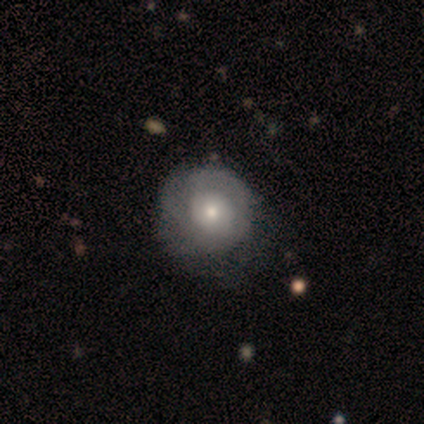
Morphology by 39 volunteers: smooth-or-featured: featured or disk: 54% | smooth: 44% | star or artifact: 3%
  disk-edge-on: no: 95% | yes: 5%
    bar: no: 95% | weak: 5% | strong: 0%
    has-spiral-arms: yes: 65% | no: 35%
      spiral-winding: tight: 46% | medium: 31% | loose: 23%
      spiral-arm-count: can't tell: 46% | 2: 31% | 1: 15% | 3: 8% | 4: 0% | more than 4: 0%
    bulge-size: moderate: 50% (tied) | small: 50% (tied) | dominant: 0% | large: 0% | none: 0%
  merging: none: 47% | minor disturbance: 13% | major disturbance: 11% | merger: 0%